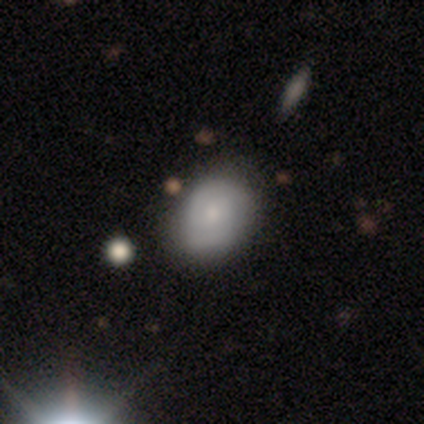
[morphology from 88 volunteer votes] Volunteers were most divided on "how rounded": in between: 56%, round: 44%, cigar-shaped: 0%. More confident: merging — none (80%); smooth or featured — smooth (61%).